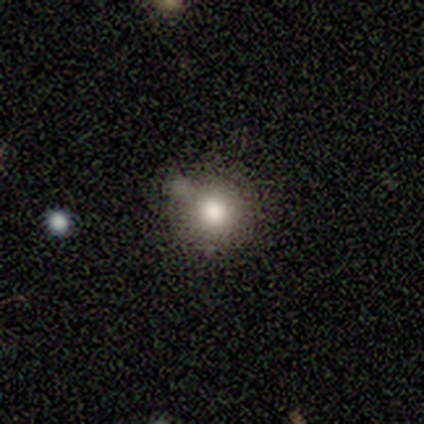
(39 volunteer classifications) Q: Smooth or featured?
A: smooth (77%); runner-up: star or artifact (15%)
Q: How rounded?
A: round (100%)
Q: Merging?
A: none (67%); runner-up: minor disturbance (24%)